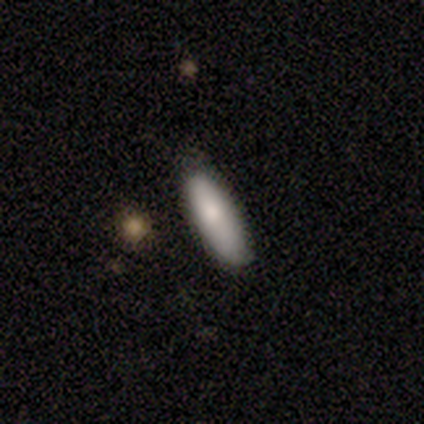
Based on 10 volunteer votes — Volunteers were most divided on "how rounded": cigar-shaped: 80%, in between: 20%, round: 0%. More confident: smooth or featured — smooth (100%); merging — none (80%).